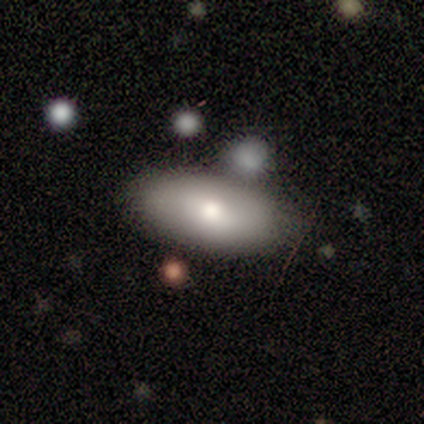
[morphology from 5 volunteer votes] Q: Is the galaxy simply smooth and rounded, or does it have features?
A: smooth — 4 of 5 (80%).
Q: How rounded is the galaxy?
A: in between — 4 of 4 (100%).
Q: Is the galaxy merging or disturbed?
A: none — 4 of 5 (80%).